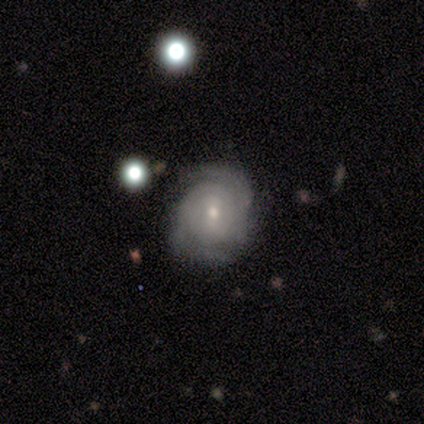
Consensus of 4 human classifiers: Smooth or featured?
  - featured or disk: 100% *
  - smooth: 0%
  - star or artifact: 0%
Edge-on disk?
  - no: 100% *
  - yes: 0%
Bar?
  - weak: 75% *
  - no: 25%
  - strong: 0%
Spiral arms?
  - yes: 100% *
  - no: 0%
Spiral winding?
  - tight: 100% *
  - medium: 0%
  - loose: 0%
Spiral arm count?
  - can't tell: 75% *
  - 2: 25%
  - 1: 0%
  - 3: 0%
  - 4: 0%
  - more than 4: 0%
Bulge size?
  - moderate: 75% *
  - small: 25%
  - dominant: 0%
  - large: 0%
  - none: 0%
Merging?
  - none: 75% *
  - major disturbance: 25%
  - minor disturbance: 0%
  - merger: 0%